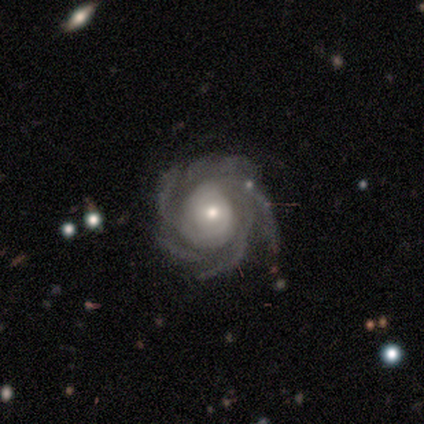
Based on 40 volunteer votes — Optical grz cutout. It shows a featured or disk galaxy (95%) with no bar (66%), more than 4 (63%) tight (66%) spiral arms (100%) and a moderate central bulge (50%). Merging: none (77%).